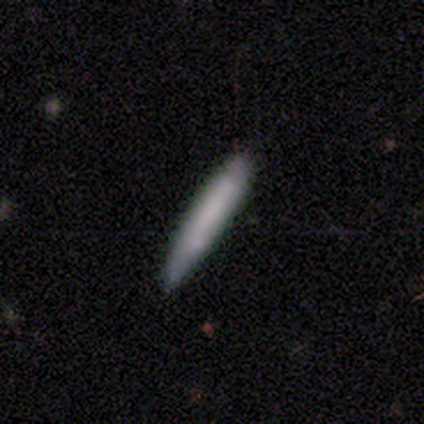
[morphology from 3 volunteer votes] Smooth or featured? 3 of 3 (100%) said smooth. How rounded? 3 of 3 (100%) said cigar-shaped. Merging? 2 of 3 (67%) said none.